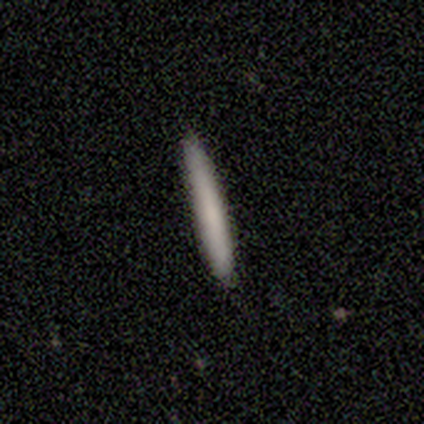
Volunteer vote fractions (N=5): Smooth or featured? 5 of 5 (100%) said smooth. How rounded? 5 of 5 (100%) said cigar-shaped. Merging? 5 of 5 (100%) said none.